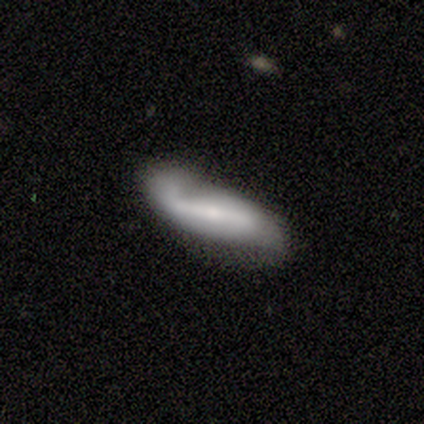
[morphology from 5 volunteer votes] Volunteers were most divided on "smooth or featured" (2-way tie): smooth: 40%, featured or disk: 40%, star or artifact: 20%. More confident: how rounded — in between (100%); merging — minor disturbance (50%).